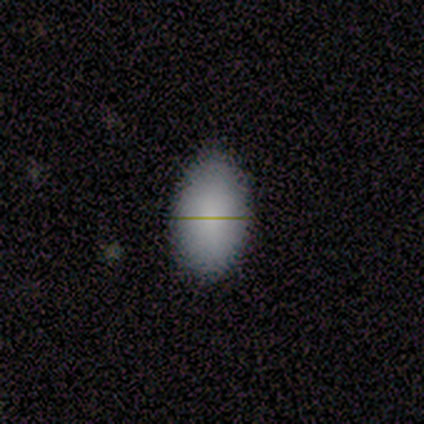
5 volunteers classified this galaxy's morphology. Smooth or featured? 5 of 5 (100%) said smooth. How rounded? 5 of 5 (100%) said in between. Merging? 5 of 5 (100%) said none.